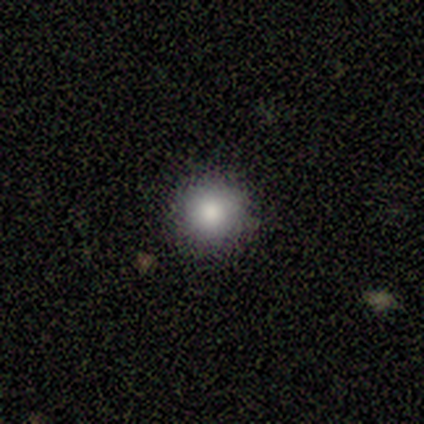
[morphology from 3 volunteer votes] Smooth or featured? smooth (67%)
How rounded? round (100%)
Merging? none (50%, tied with minor disturbance)